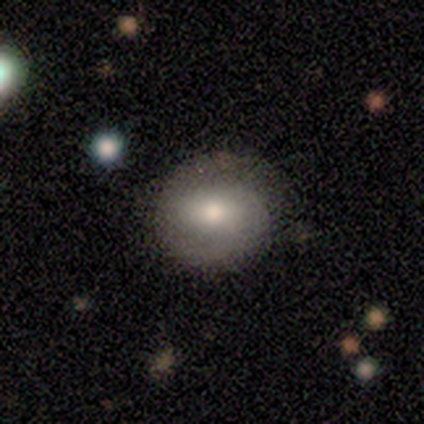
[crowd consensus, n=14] Q: Smooth or featured?
A: smooth (64%); runner-up: featured or disk (36%)
Q: How rounded?
A: round (89%); runner-up: in between (11%)
Q: Merging?
A: none (71%); runner-up: minor disturbance (21%)